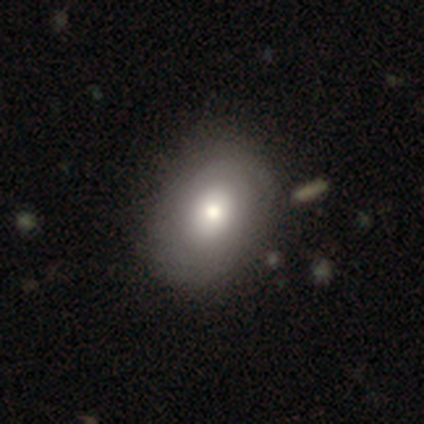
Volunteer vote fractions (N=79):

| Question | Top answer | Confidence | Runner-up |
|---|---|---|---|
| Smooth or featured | smooth | 70% | featured or disk (24%) |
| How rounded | in between | 64% | round (36%) |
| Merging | none | 42% | minor disturbance (4%) |